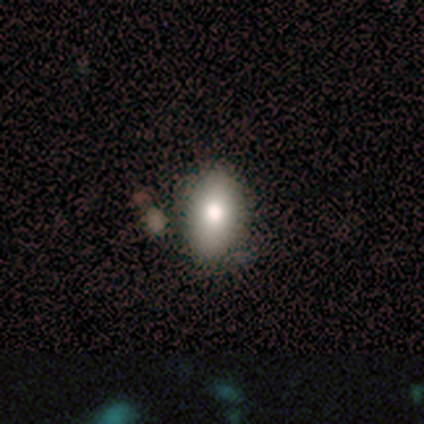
smooth-or-featured: smooth: 100% | featured or disk: 0% | star or artifact: 0%
  how-rounded: in between: 100% | round: 0% | cigar-shaped: 0%
  merging: none: 80% | minor disturbance: 20% | major disturbance: 0% | merger: 0%